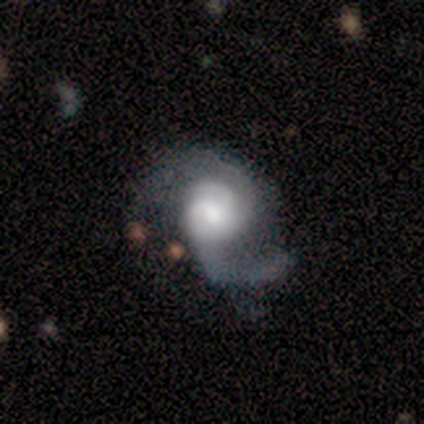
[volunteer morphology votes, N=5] Smooth or featured?
  - featured or disk: 80% *
  - star or artifact: 20%
  - smooth: 0%
Edge-on disk?
  - no: 100% *
  - yes: 0%
Bar?
  - weak: 50% * (tied)
  - no: 50% * (tied)
  - strong: 0%
Spiral arms?
  - yes: 75% *
  - no: 25%
Spiral winding?
  - medium: 67% *
  - tight: 33%
  - loose: 0%
Spiral arm count?
  - 1: 67% *
  - 2: 33%
  - 3: 0%
  - 4: 0%
  - more than 4: 0%
  - can't tell: 0%
Bulge size?
  - moderate: 75% *
  - large: 25%
  - dominant: 0%
  - small: 0%
  - none: 0%
Merging?
  - major disturbance: 50% *
  - none: 25%
  - minor disturbance: 25%
  - merger: 0%